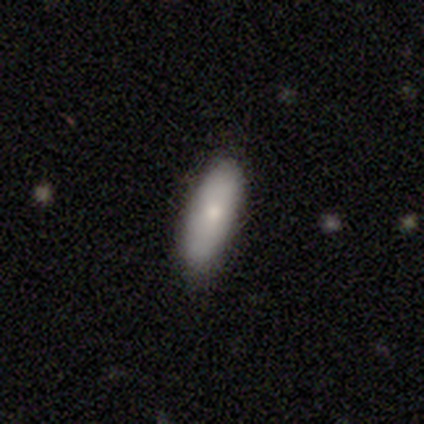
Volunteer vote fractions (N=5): smooth_or_featured: smooth (p=0.80) [alt: featured or disk p=0.20]
how_rounded: in between (p=0.75) [alt: cigar-shaped p=0.25]
merging: none (p=1.00)